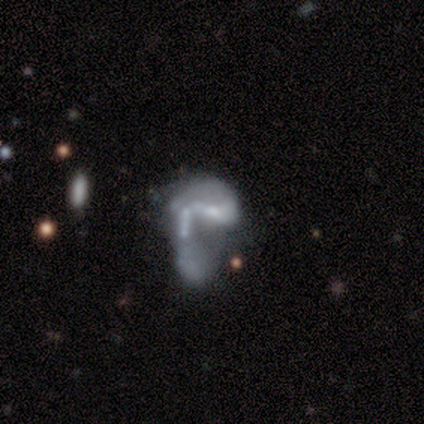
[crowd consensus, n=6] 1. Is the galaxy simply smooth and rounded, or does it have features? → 83% featured or disk, 17% smooth, 0% star or artifact.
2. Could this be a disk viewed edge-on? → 100% no, 0% yes.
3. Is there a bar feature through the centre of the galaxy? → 80% no, 20% weak, 0% strong.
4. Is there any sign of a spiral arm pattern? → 60% no, 40% yes.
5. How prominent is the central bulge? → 60% small, 20% moderate, 20% none, 0% dominant, 0% large.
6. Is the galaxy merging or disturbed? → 33% none (tied), 33% major disturbance (tied), 33% merger (tied), 0% minor disturbance.